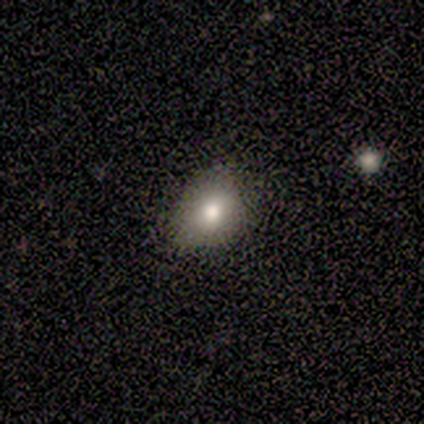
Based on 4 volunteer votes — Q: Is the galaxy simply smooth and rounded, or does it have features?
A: smooth — 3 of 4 (75%).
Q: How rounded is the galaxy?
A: in between — 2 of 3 (67%).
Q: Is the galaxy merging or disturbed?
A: none — 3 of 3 (100%).